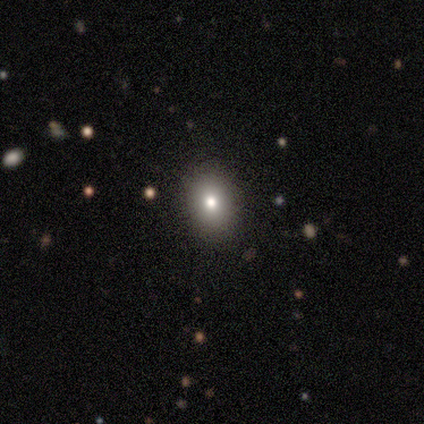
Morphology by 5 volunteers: Smooth or featured? 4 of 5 (80%) said smooth. How rounded? 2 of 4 (50%, tied with in between) said round. Merging? 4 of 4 (100%) said none.